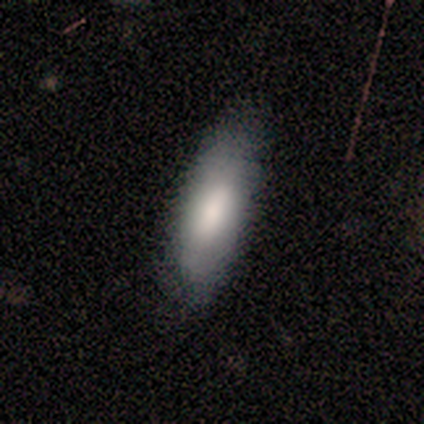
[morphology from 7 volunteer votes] This appears to be a smooth galaxy with no disk features (86%) that is in between round and cigar-shaped (100%). Merging: none (43%, tied with minor disturbance).